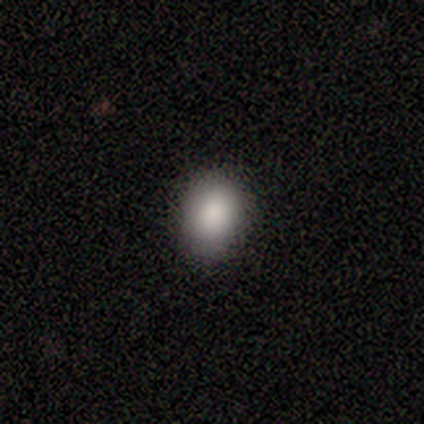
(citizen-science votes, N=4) This is clearly a smooth galaxy (100%). How rounded: likely round (75%). Merging: clearly none (100%).